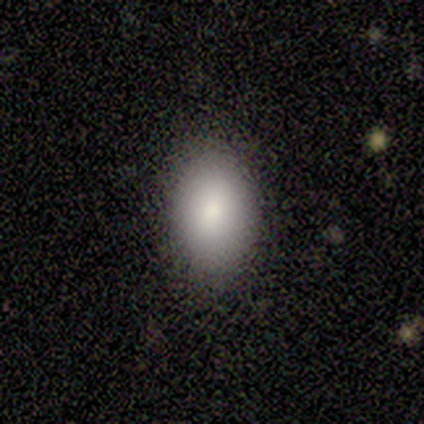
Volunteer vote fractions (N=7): smooth 71%, featured or disk 29%, star or artifact 0%. Down the decision tree: how rounded — in between (100%); merging — none (100%).